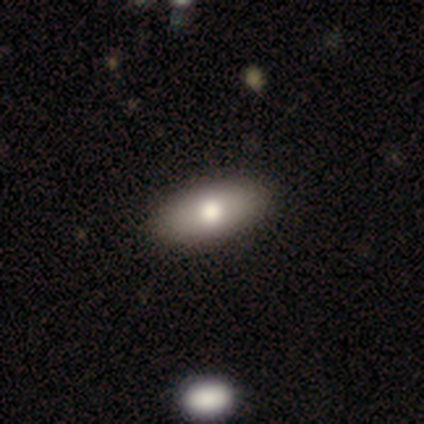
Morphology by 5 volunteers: smooth 80%, star or artifact 20%, featured or disk 0%. Down the decision tree: how rounded — in between (75%); merging — none (100%).